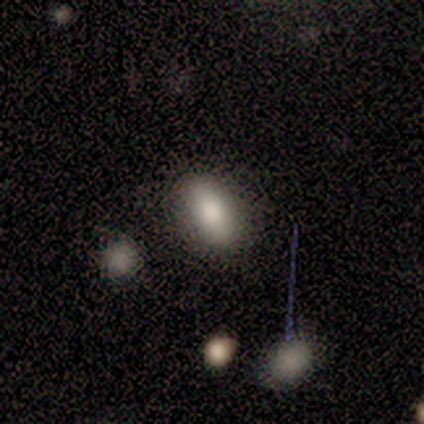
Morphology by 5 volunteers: Q: Smooth or featured?
A: smooth (60%); runner-up: featured or disk (20%)
Q: How rounded?
A: in between (100%)
Q: Merging?
A: none (100%)